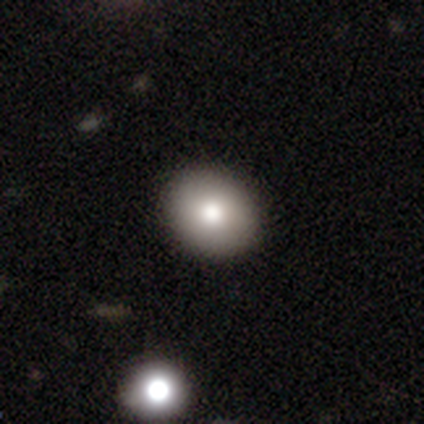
This is clearly a smooth galaxy (81%). How rounded: possibly round (59%). Merging: possibly none (47%).